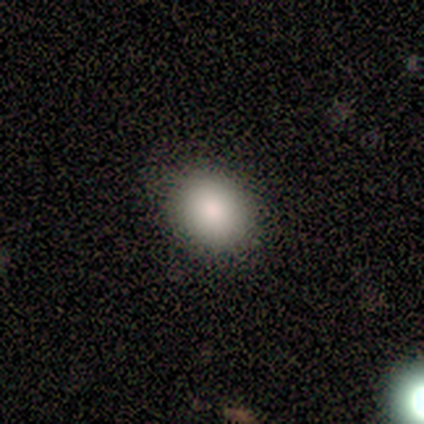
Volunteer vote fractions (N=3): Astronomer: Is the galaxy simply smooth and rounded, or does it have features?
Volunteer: smooth — 100%.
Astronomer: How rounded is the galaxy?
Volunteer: in between — 67%.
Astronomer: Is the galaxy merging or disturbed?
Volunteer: none — 100%.